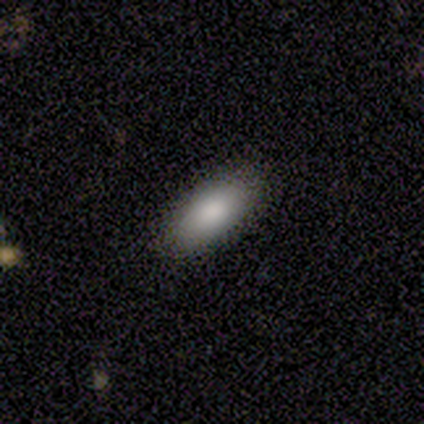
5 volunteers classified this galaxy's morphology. smooth-or-featured: smooth: 100% | featured or disk: 0% | star or artifact: 0%
  how-rounded: in between: 100% | round: 0% | cigar-shaped: 0%
  merging: none: 100% | minor disturbance: 0% | major disturbance: 0% | merger: 0%